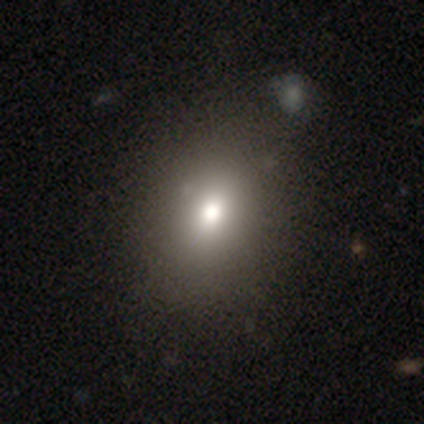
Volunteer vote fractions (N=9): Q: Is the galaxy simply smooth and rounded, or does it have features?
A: smooth — 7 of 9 (78%).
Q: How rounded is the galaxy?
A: in between — 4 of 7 (57%).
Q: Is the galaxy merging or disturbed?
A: none — 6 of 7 (86%).